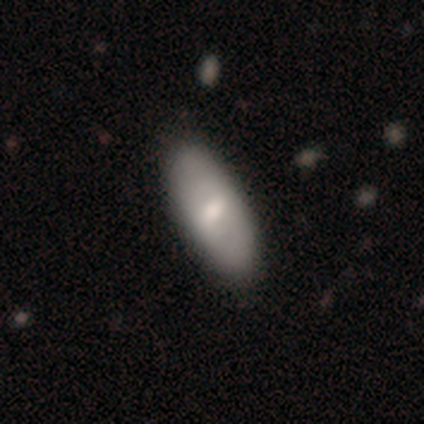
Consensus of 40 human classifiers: Smooth or featured?
  - smooth: 57% *
  - featured or disk: 38%
  - star or artifact: 5%
How rounded?
  - in between: 91% *
  - round: 4%
  - cigar-shaped: 4%
Merging?
  - none: 63% *
  - major disturbance: 11%
  - minor disturbance: 3%
  - merger: 0%